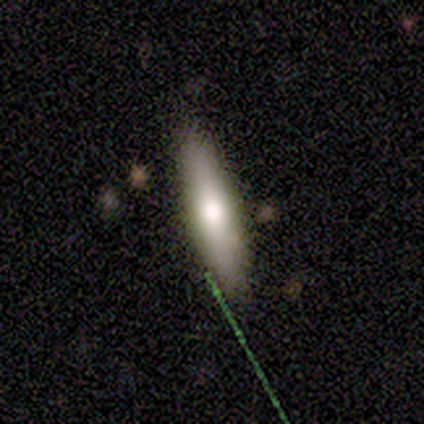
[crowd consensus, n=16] A smooth galaxy with no disk features (56%) that is cigar-shaped (78%).

Vote fractions:
- Smooth or featured? smooth: 56% / featured or disk: 31% / star or artifact: 12%
- How rounded? cigar-shaped: 78% / in between: 22% / round: 0%
- Merging? none: 86% / minor disturbance: 14% / major disturbance: 0% / merger: 0%